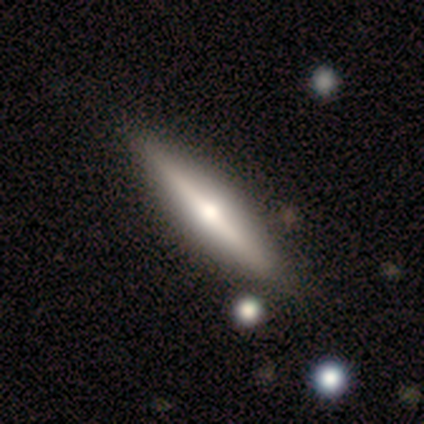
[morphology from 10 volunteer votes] featured or disk 70%, smooth 20%, star or artifact 10%. Down the decision tree: edge-on disk — yes (100%); edge-on bulge — rounded (86%); merging — none (100%).